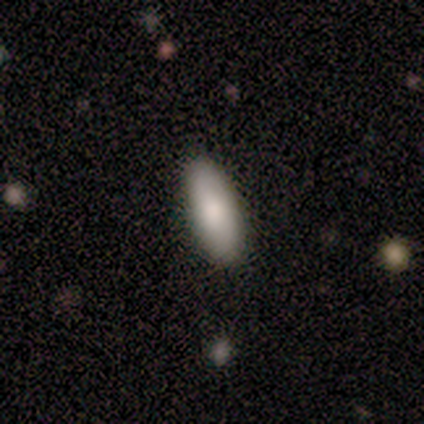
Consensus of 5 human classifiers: Overall: smooth (80%). How rounded: in between (75%). Merging: none (100%).